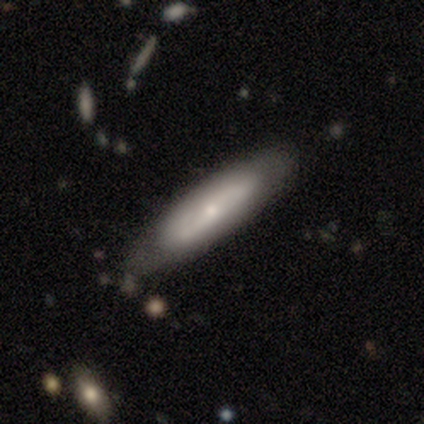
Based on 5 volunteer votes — A featured or disk galaxy (80%) viewed edge-on (50%, tied with no) with no central bulge (50%, tied with rounded). Merging: none (100%).